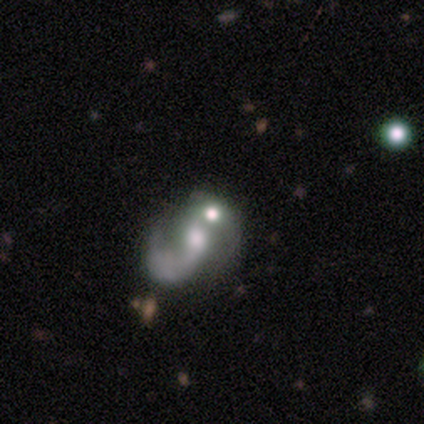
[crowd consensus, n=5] This is clearly a featured or disk galaxy (100%). It is clearly not viewed edge-on (100%). Bar: clearly no (80%). Spiral arm pattern: likely yes (60%). Spiral arm count: likely 1 (67%). Spiral winding: marginally tight (33%, tied with medium and loose). Central bulge: marginally small (40%, tied with none). Merging: marginally none (40%, tied with merger).